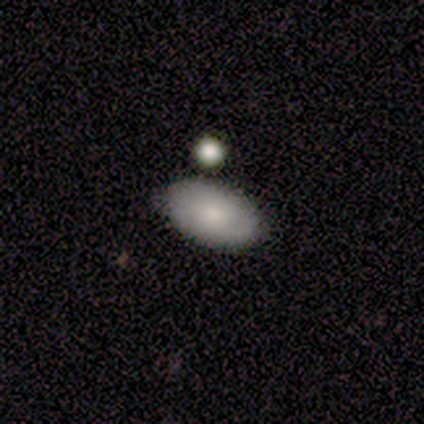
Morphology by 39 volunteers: This is likely a smooth galaxy (79%). How rounded: clearly in between (87%). Merging: clearly none (86%).